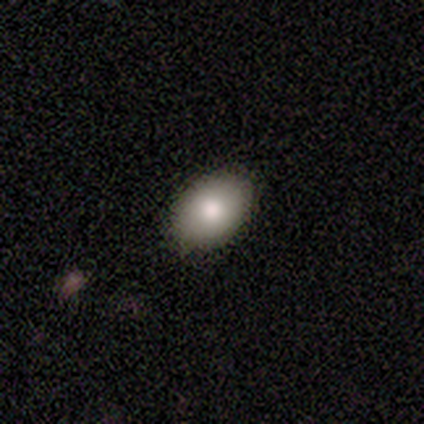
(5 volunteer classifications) Morphology: type=smooth (100%); roundness=in between (80%); merging=none (100%).